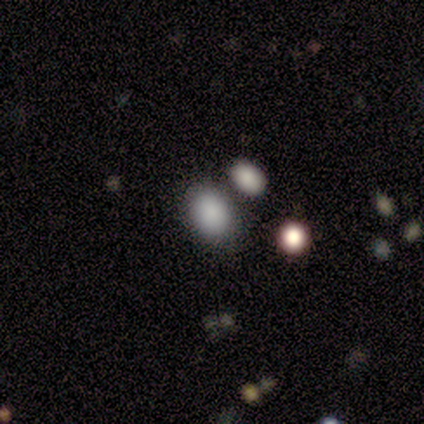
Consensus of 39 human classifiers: Q: Smooth or featured?
A: smooth (77%); runner-up: featured or disk (13%)
Q: How rounded?
A: in between (70%); runner-up: round (27%)
Q: Merging?
A: none (74%); runner-up: merger (14%)